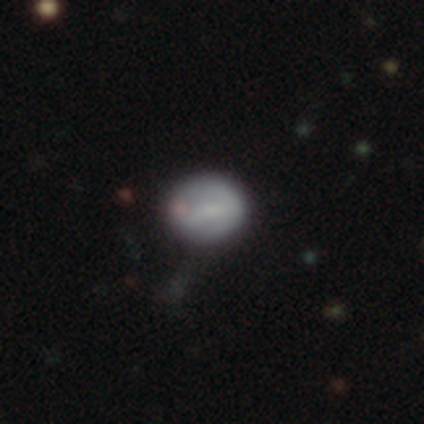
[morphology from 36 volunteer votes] Smooth or featured: smooth — 61% (featured or disk — 25%)
How rounded: round — 77% (in between — 23%)
Merging: none — 81% (minor disturbance — 10%)